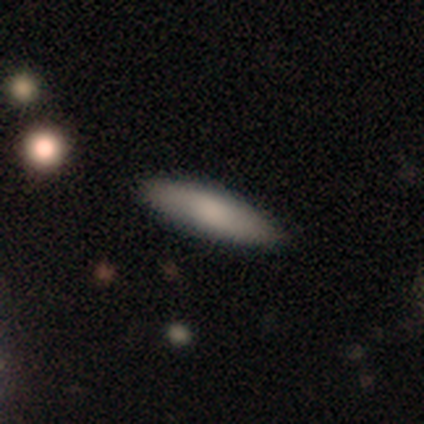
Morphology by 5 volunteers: smooth-or-featured: smooth: 80% | featured or disk: 20% | star or artifact: 0%
  how-rounded: cigar-shaped: 75% | in between: 25% | round: 0%
  merging: none: 60% | minor disturbance: 20% | major disturbance: 20% | merger: 0%